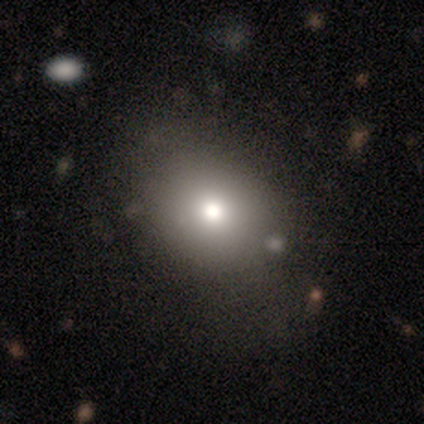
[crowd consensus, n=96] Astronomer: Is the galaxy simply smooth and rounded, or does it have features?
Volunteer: smooth — 71%.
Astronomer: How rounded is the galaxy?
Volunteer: round — 56% (runner-up: in between, 44%).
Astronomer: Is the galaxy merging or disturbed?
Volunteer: none — 88%.